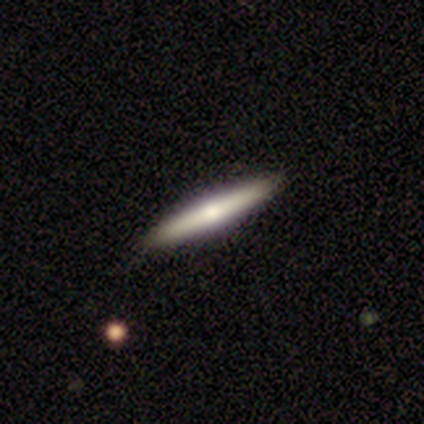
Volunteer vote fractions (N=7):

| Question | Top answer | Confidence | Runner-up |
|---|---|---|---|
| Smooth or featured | featured or disk | 57% | smooth (43%) |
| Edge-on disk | yes | 100% | — |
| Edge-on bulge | rounded | 75% | none (25%) |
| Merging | none | 100% | — |